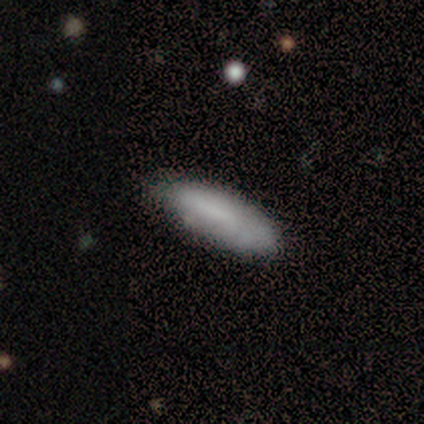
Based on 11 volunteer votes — This appears to be a smooth galaxy with no disk features (100%) that is in between round and cigar-shaped (64%). Merging: none (73%).